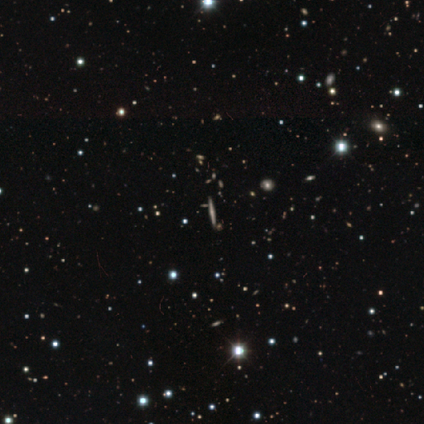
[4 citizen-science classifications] A featured or disk galaxy (50%) viewed edge-on (100%) with a rounded central bulge (100%). Merging: none (100%).